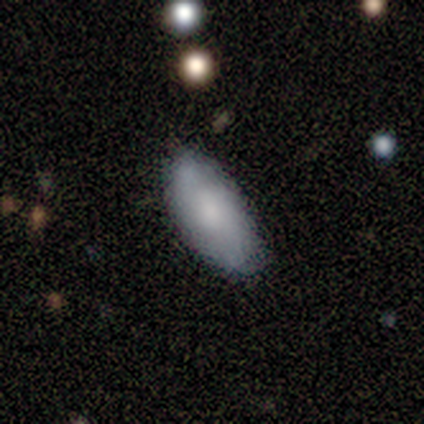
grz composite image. It shows a smooth galaxy with no disk features (80%) that is in between round and cigar-shaped (75%). Merging: none (40%, tied with major disturbance).